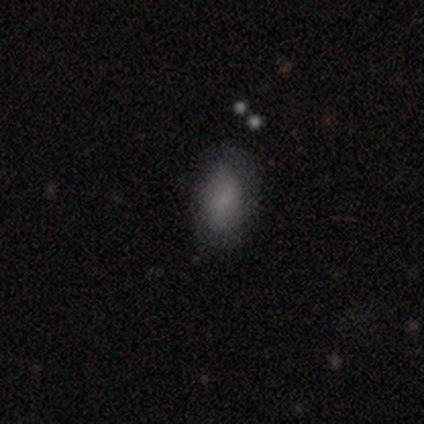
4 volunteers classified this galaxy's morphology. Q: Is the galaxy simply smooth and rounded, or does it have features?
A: smooth — 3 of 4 (75%).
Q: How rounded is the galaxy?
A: in between — 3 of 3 (100%).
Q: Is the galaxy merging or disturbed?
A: none — 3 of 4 (75%).